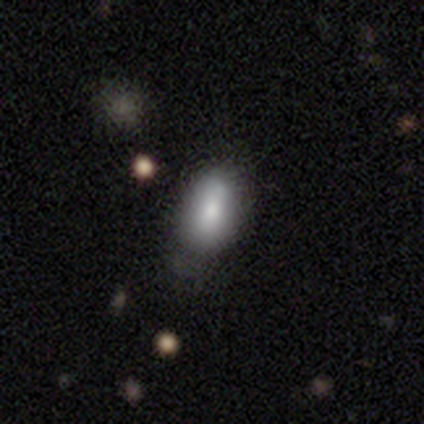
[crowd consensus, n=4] smooth_or_featured: smooth (p=1.00)
how_rounded: in between (p=1.00)
merging: none (p=0.75) [alt: minor disturbance p=0.25]